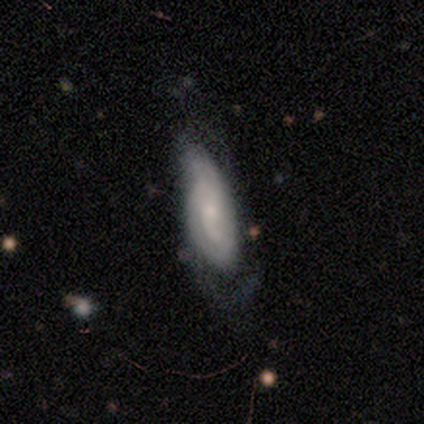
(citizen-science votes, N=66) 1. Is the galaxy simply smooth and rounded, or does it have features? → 55% featured or disk, 39% smooth, 6% star or artifact.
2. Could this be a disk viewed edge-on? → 94% no, 6% yes.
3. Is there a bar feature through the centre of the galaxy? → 74% no, 18% weak, 9% strong.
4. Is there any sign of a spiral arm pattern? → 85% yes, 15% no.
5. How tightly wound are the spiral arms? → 48% tight, 31% medium, 21% loose.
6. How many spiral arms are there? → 55% can't tell, 28% 2, 10% 3, 7% 1, 0% 4, 0% more than 4.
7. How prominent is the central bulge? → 59% small, 29% moderate, 9% none, 3% large, 0% dominant.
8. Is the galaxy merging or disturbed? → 50% minor disturbance, 29% major disturbance, 19% none, 2% merger.